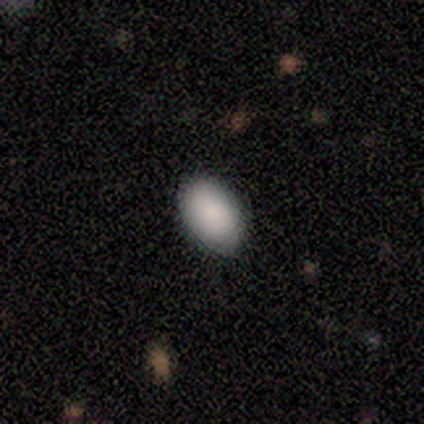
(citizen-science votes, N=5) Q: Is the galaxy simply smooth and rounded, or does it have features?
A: smooth — 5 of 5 (100%).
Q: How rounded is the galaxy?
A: in between — 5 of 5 (100%).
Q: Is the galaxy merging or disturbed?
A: none — 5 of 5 (100%).